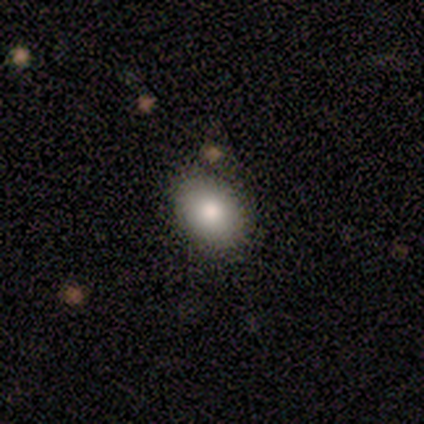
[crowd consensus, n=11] Morphology: type=smooth (73%); roundness=in between (75%); merging=none (82%).